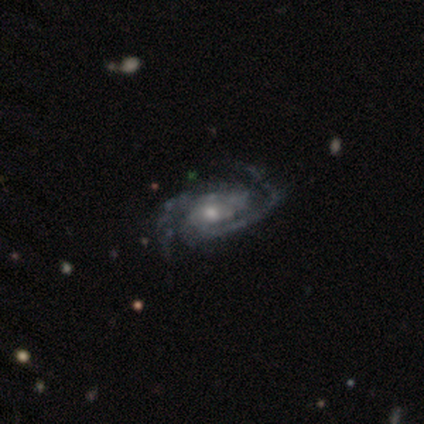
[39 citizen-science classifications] Smooth or featured? featured or disk (90%)
Edge-on disk? no (97%)
Bar? no (74%)
Spiral arms? yes (94%)
Spiral winding? tight (47%)
Spiral arm count? 2 (75%)
Bulge size? moderate (59%)
Merging? none (57%)